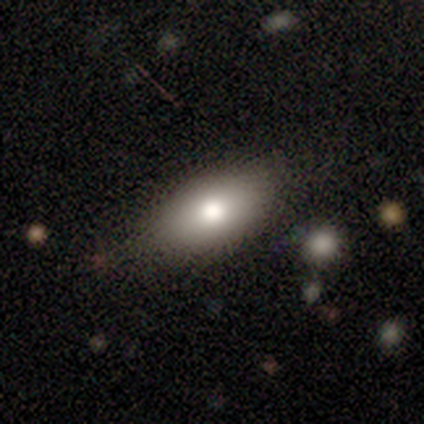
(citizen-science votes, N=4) Overall: smooth (50%; featured or disk 25%). How rounded: in between (100%). Merging: none (100%).